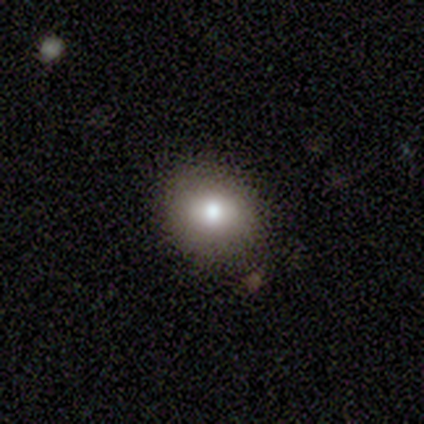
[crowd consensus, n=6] Smooth or featured?
  - smooth: 67% *
  - featured or disk: 33%
  - star or artifact: 0%
How rounded?
  - round: 75% *
  - in between: 25%
  - cigar-shaped: 0%
Merging?
  - none: 67% *
  - minor disturbance: 33%
  - major disturbance: 0%
  - merger: 0%